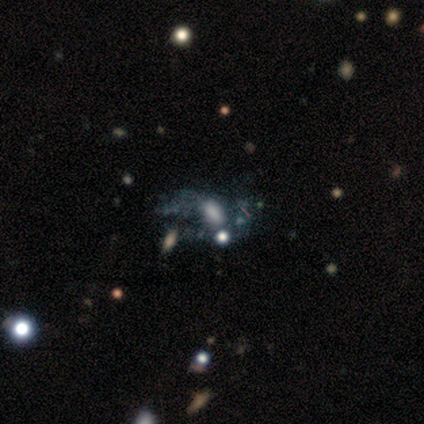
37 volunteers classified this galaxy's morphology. smooth_or_featured: featured or disk (p=0.62) [alt: smooth p=0.19]
disk_edge_on: no (p=0.96) [alt: yes p=0.04]
bar: no (p=0.82) [alt: weak p=0.14]
has_spiral_arms: no (p=0.82) [alt: yes p=0.18]
bulge_size: large (p=0.27) [tied with: moderate p=0.27]
merging: major disturbance (p=0.37) [alt: none p=0.27]